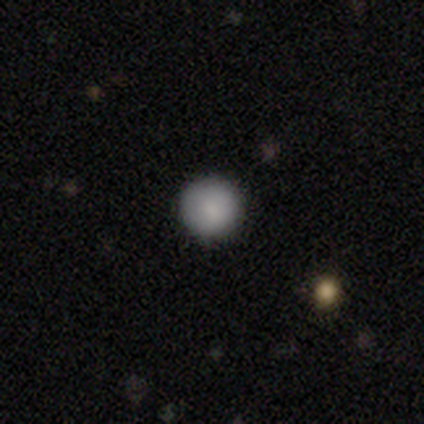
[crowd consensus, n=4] Smooth or featured?
  - smooth: 75% *
  - featured or disk: 25%
  - star or artifact: 0%
How rounded?
  - round: 100% *
  - in between: 0%
  - cigar-shaped: 0%
Merging?
  - none: 100% *
  - minor disturbance: 0%
  - major disturbance: 0%
  - merger: 0%